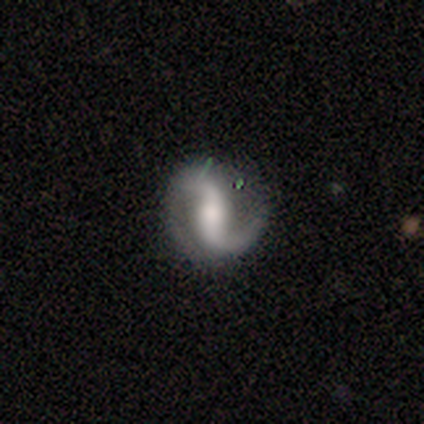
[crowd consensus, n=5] A featured or disk galaxy (80%) with a strong bar (75%), 2 (100%) loose (67%) spiral arms (75%) and a large central bulge (75%). Merging: none (100%).